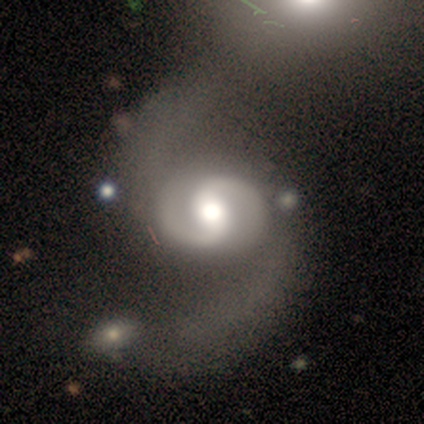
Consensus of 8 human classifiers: Smooth or featured?
  - featured or disk: 88% *
  - star or artifact: 12%
  - smooth: 0%
Edge-on disk?
  - no: 100% *
  - yes: 0%
Bar?
  - weak: 43% * (tied)
  - no: 43% * (tied)
  - strong: 14%
Spiral arms?
  - yes: 100% *
  - no: 0%
Spiral winding?
  - tight: 43% * (tied)
  - medium: 43% * (tied)
  - loose: 14%
Spiral arm count?
  - 2: 100% *
  - 1: 0%
  - 3: 0%
  - 4: 0%
  - more than 4: 0%
  - can't tell: 0%
Bulge size?
  - moderate: 71% *
  - large: 14%
  - small: 14%
  - dominant: 0%
  - none: 0%
Merging?
  - none: 57% *
  - major disturbance: 29%
  - minor disturbance: 14%
  - merger: 0%